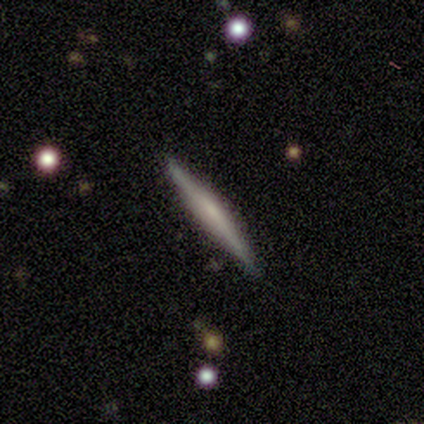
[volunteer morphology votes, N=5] Q: Smooth or featured?
A: smooth (60%); runner-up: featured or disk (40%)
Q: How rounded?
A: cigar-shaped (100%)
Q: Merging?
A: none (100%)